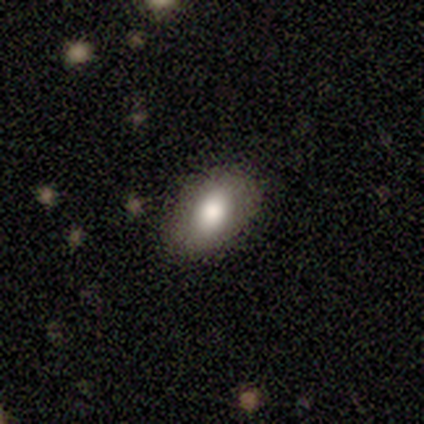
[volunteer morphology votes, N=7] Overall: smooth (71%). How rounded: in between (80%). Merging: none (67%).